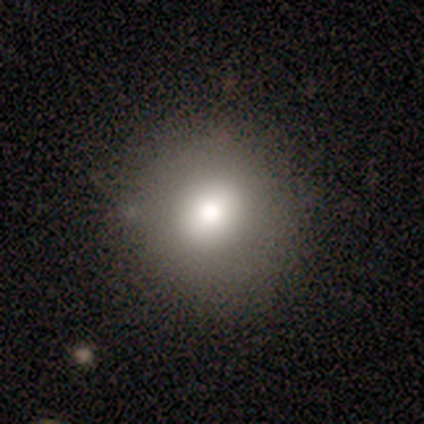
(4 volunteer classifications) A smooth galaxy with no disk features (75%) that is round (100%). Merging: none (100%).